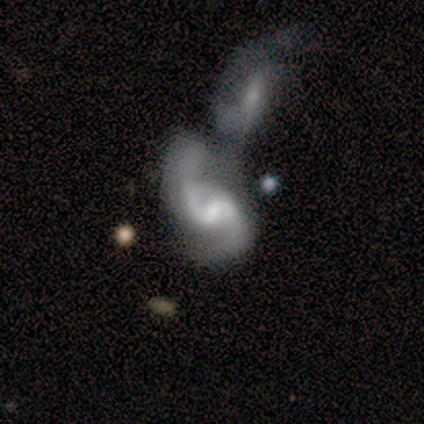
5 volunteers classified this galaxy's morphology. Smooth or featured? featured or disk (80%)
Edge-on disk? no (100%)
Bar? weak (50%)
Spiral arms? yes (100%)
Spiral winding? loose (100%)
Spiral arm count? 2 (75%)
Bulge size? small (75%)
Merging? merger (50%)